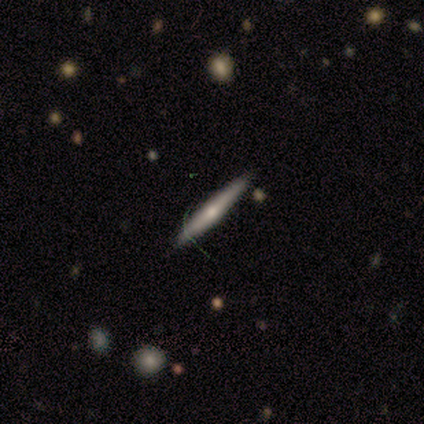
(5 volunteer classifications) A featured or disk galaxy (60%) viewed edge-on (67%) with a rounded central bulge (100%). Merging: none (80%).